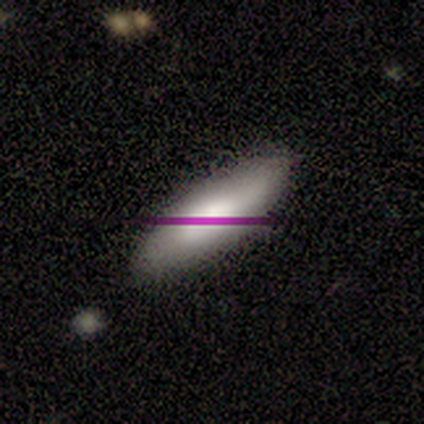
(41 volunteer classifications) Smooth or featured?
  - smooth: 71% *
  - featured or disk: 20%
  - star or artifact: 10%
How rounded?
  - in between: 83% *
  - cigar-shaped: 17%
  - round: 0%
Merging?
  - none: 54% *
  - minor disturbance: 14%
  - major disturbance: 5%
  - merger: 3%